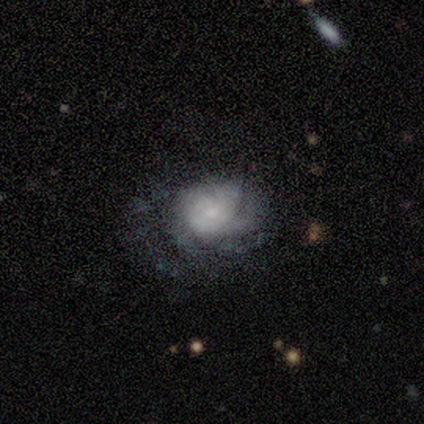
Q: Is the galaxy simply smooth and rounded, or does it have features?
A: featured or disk — 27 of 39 (69%).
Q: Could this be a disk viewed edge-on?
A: no — 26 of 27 (96%).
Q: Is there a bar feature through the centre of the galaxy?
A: no — 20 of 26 (77%).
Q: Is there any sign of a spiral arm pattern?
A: yes — 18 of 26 (69%).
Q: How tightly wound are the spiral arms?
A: tight — 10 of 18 (56%).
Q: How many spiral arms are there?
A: can't tell — 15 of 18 (83%).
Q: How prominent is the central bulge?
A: small — 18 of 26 (69%).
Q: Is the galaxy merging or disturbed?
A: none — 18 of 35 (51%).